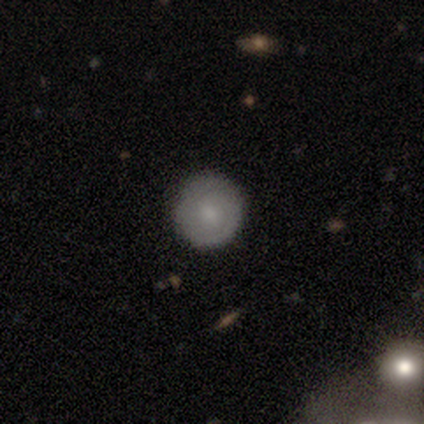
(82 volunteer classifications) smooth_or_featured: smooth (p=0.62) [alt: featured or disk p=0.30]
how_rounded: round (p=0.98) [alt: in between p=0.02]
merging: none (p=0.53) [alt: merger p=0.04]